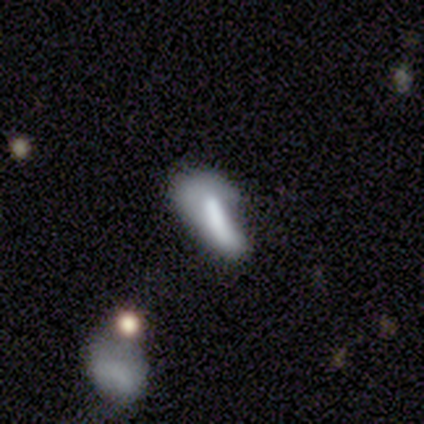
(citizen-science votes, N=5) smooth_or_featured: smooth (p=0.60) [alt: featured or disk p=0.40]
how_rounded: in between (p=0.67) [alt: cigar-shaped p=0.33]
merging: none (p=0.40) [alt: minor disturbance p=0.20]